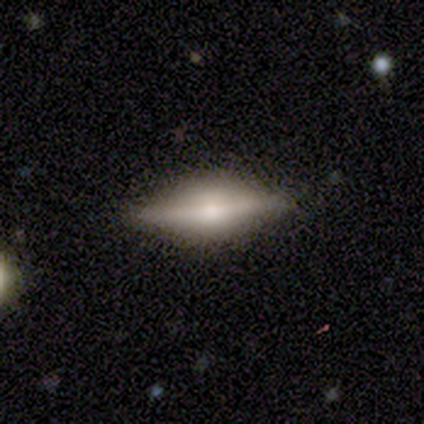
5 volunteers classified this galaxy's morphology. Overall: smooth (60%; featured or disk 40%). How rounded: in between (100%). Merging: none (80%).